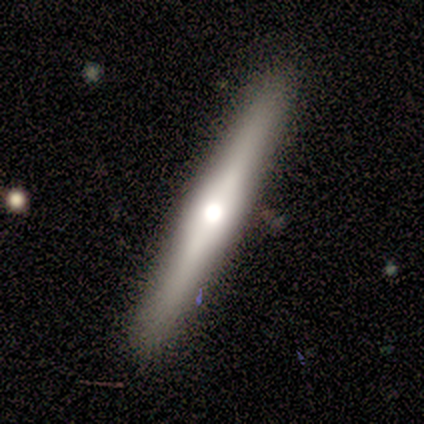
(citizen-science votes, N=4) Smooth or featured? 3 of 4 (75%) said smooth. How rounded? 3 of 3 (100%) said cigar-shaped. Merging? 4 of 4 (100%) said none.